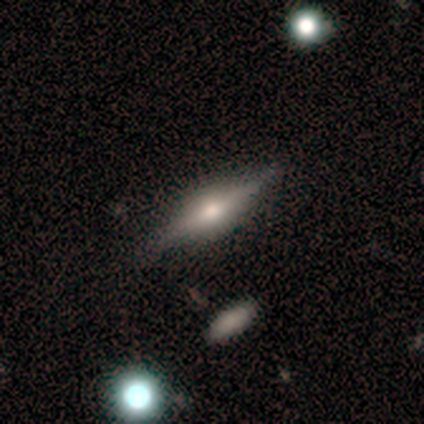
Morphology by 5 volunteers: This appears to be a featured or disk galaxy (80%) viewed edge-on (75%) with a rounded central bulge (100%). Merging: none (80%).